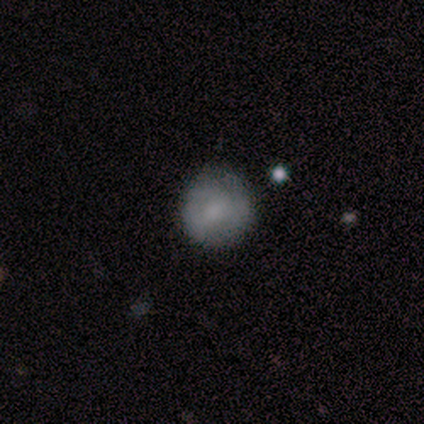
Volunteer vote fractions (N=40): Morphology: type=smooth (68%); roundness=round (96%); merging=none (72%).